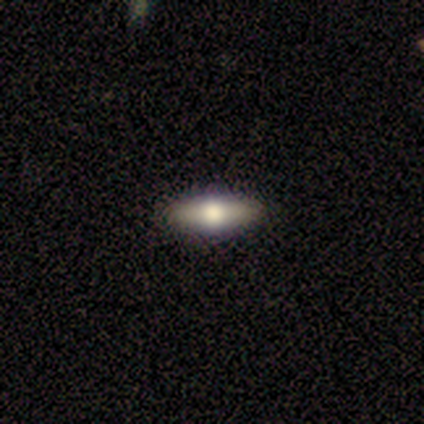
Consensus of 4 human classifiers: Smooth or featured?
  - smooth: 50% * (tied)
  - featured or disk: 50% * (tied)
  - star or artifact: 0%
How rounded?
  - in between: 100% *
  - round: 0%
  - cigar-shaped: 0%
Merging?
  - none: 75% *
  - minor disturbance: 25%
  - major disturbance: 0%
  - merger: 0%